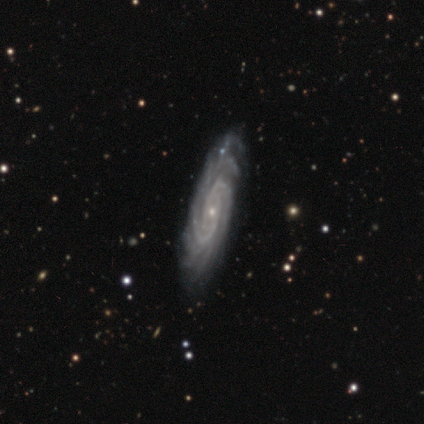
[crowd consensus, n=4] Smooth or featured? featured or disk (100%)
Edge-on disk? no (100%)
Bar? no (75%)
Spiral arms? yes (100%)
Spiral winding? tight (100%)
Spiral arm count? 3 (50%)
Bulge size? small (75%)
Merging? none (100%)